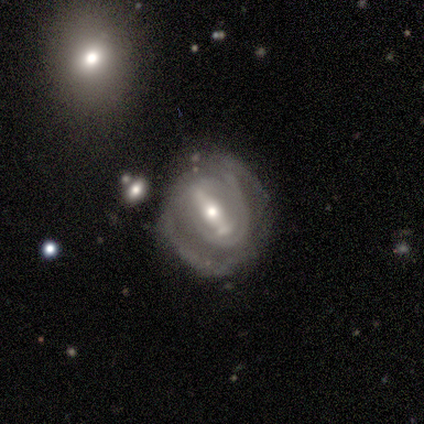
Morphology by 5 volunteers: Smooth or featured? featured or disk (80%)
Edge-on disk? no (100%)
Bar? strong (100%)
Spiral arms? yes (100%)
Spiral winding? tight (75%)
Spiral arm count? 2 (50%)
Bulge size? moderate (50%, tied with small)
Merging? minor disturbance (60%)